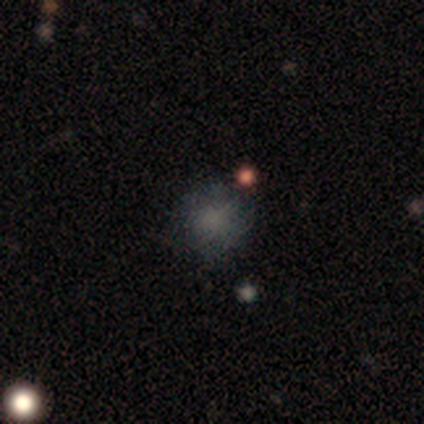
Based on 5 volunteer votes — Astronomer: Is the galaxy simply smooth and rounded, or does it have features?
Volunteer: smooth — 80%.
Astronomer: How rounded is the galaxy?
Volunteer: round — 100%.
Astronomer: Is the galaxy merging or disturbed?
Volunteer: none — 100%.